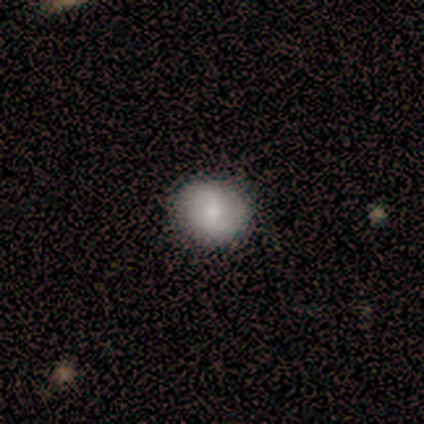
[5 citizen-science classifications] Smooth or featured? 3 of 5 (60%) said smooth. How rounded? 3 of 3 (100%) said round. Merging? 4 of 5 (80%) said none.